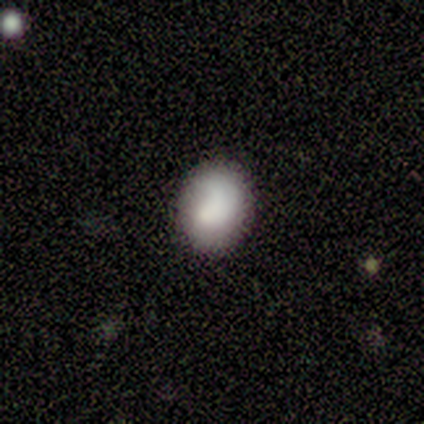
Smooth or featured? smooth (75%)
How rounded? in between (67%)
Merging? none (100%)